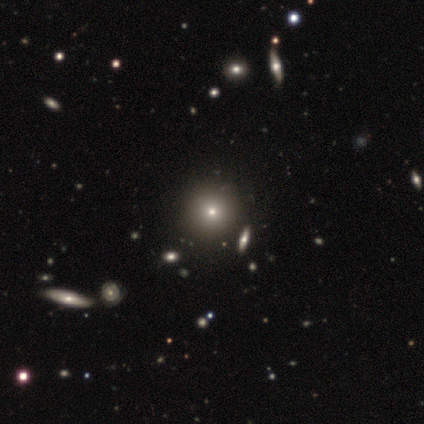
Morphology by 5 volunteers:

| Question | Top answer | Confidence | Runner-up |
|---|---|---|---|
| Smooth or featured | smooth | 60% | star or artifact (40%) |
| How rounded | round | 67% | in between (33%) |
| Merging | none | 100% | — |